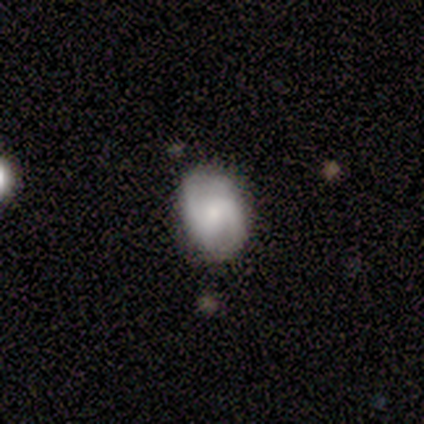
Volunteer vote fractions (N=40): featured or disk 65%, smooth 30%, star or artifact 5%. Down the decision tree: edge-on disk — no (96%); bar — weak (52%); spiral arms — yes (92%); spiral arm count — 2 (96%); spiral winding — medium (52%); bulge size — small (52%); merging — none (74%).